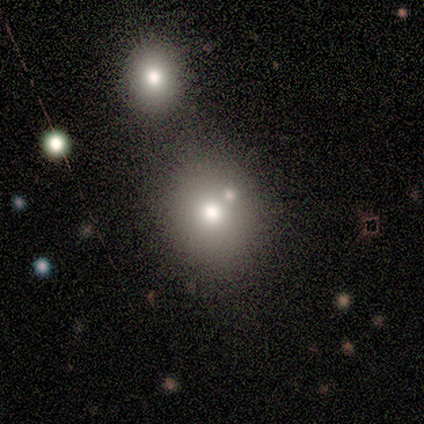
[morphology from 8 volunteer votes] Volunteers were most divided on "merging": none: 57%, merger: 29%, minor disturbance: 14%, major disturbance: 0%. More confident: how rounded — round (83%); smooth or featured — smooth (75%).